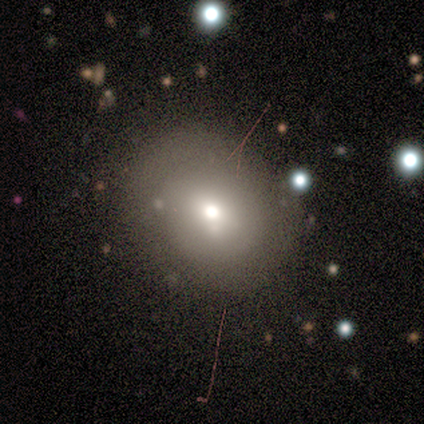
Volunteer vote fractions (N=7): Smooth or featured? smooth (57%)
How rounded? round (50%, tied with in between)
Merging? none (67%)